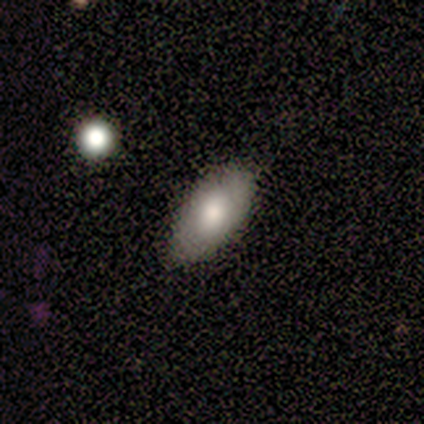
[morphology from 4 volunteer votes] This is likely a smooth galaxy (75%). How rounded: clearly in between (100%). Merging: likely none (75%).